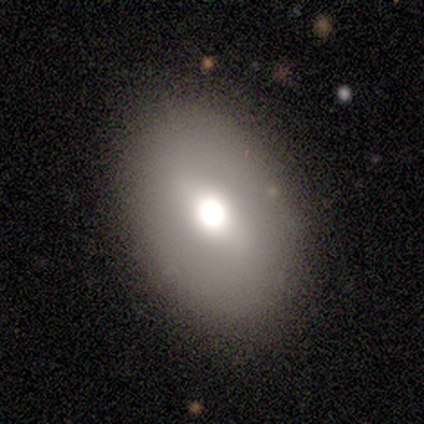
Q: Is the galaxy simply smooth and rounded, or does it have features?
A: smooth — 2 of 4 (50%).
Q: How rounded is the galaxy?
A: in between — 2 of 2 (100%).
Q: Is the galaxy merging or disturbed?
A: none — 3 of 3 (100%).